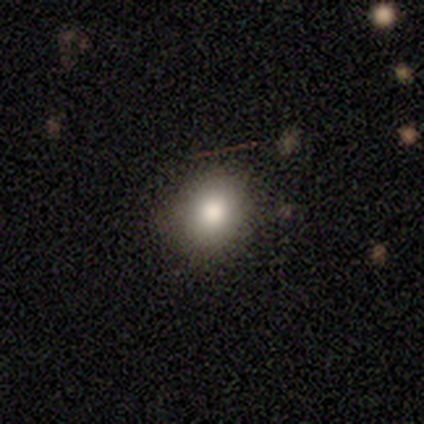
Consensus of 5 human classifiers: Smooth or featured?
  - smooth: 100% *
  - featured or disk: 0%
  - star or artifact: 0%
How rounded?
  - in between: 60% *
  - round: 40%
  - cigar-shaped: 0%
Merging?
  - none: 100% *
  - minor disturbance: 0%
  - major disturbance: 0%
  - merger: 0%